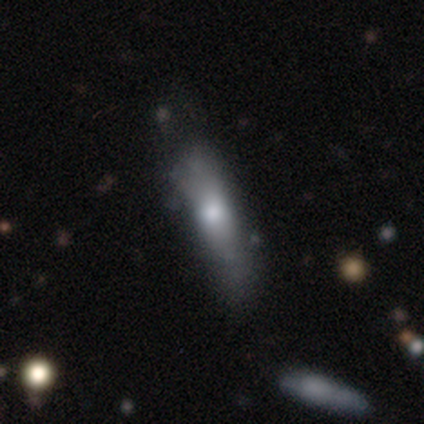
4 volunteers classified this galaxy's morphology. Smooth or featured? smooth (75%)
How rounded? cigar-shaped (100%)
Merging? none (50%)